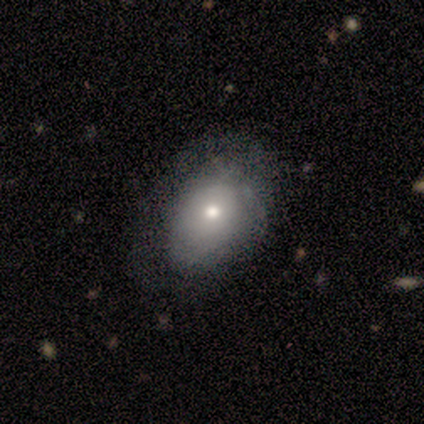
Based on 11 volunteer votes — Morphology: type=smooth (91%); roundness=in between (100%); merging=none (73%).